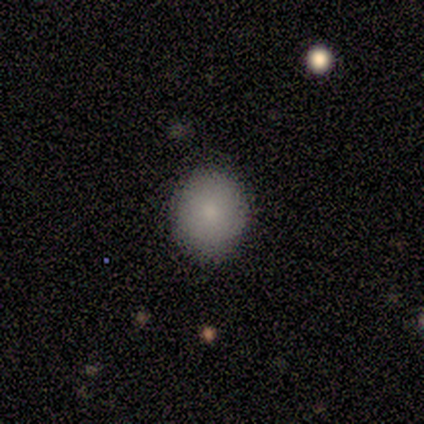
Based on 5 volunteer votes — smooth 100%, featured or disk 0%, star or artifact 0%. Down the decision tree: how rounded — round (80%); merging — none (60%).